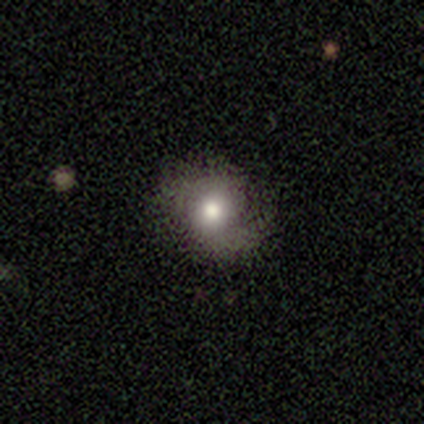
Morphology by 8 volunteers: A smooth galaxy with no disk features (62%) that is in between round and cigar-shaped (60%). Merging: none (57%).